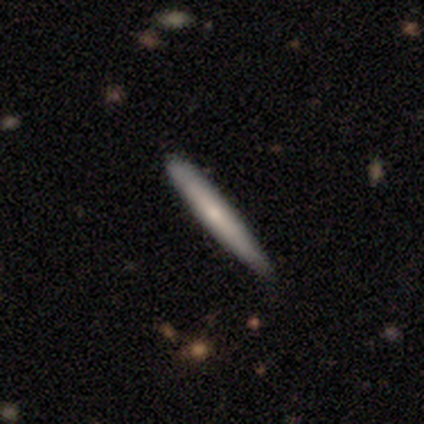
Q: Smooth or featured?
A: featured or disk (80%); runner-up: smooth (20%)
Q: Edge-on disk?
A: yes (100%)
Q: Edge-on bulge?
A: none (75%); runner-up: rounded (25%)
Q: Merging?
A: none (100%)